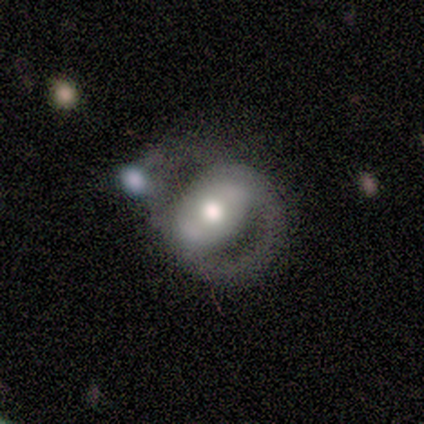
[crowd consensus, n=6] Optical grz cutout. It shows a featured or disk galaxy (67%) with no bar (100%), 1 (50%, tied with can't tell) tight (50%, tied with medium) spiral arms (50%, tied with no) and a moderate central bulge (75%). Merging: major disturbance (50%, tied with merger).